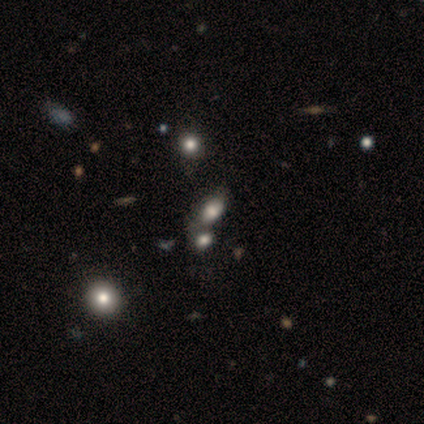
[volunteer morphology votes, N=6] This appears to be a smooth galaxy with no disk features (67%) that is in between round and cigar-shaped (100%). Merging: merger (67%).